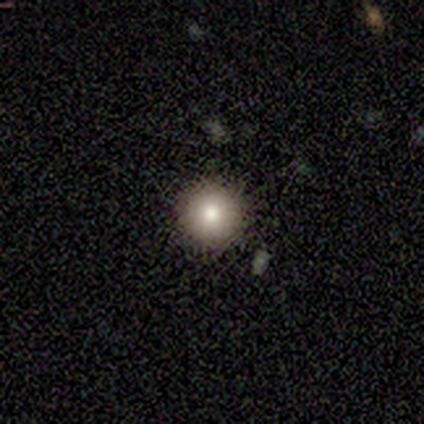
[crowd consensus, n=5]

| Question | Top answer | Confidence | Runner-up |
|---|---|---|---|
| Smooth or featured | smooth | 100% | — |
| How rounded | round | 100% | — |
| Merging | none | 100% | — |